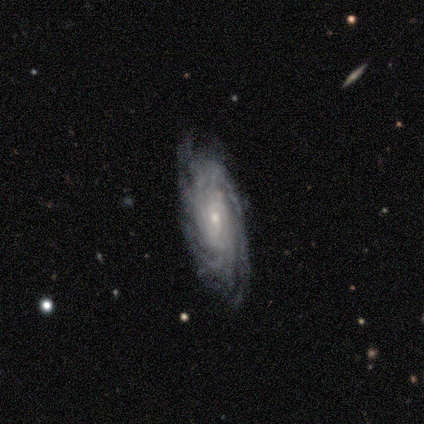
smooth_or_featured: featured or disk (p=0.90) [alt: smooth p=0.06]
disk_edge_on: no (p=0.95) [alt: yes p=0.05]
bar: no (p=0.67) [alt: weak p=0.24]
has_spiral_arms: yes (p=1.00)
spiral_winding: tight (p=0.81) [alt: medium p=0.17]
spiral_arm_count: more than 4 (p=0.45) [alt: can't tell p=0.31]
bulge_size: small (p=0.86) [alt: moderate p=0.14]
merging: none (p=0.85) [alt: minor disturbance p=0.06]